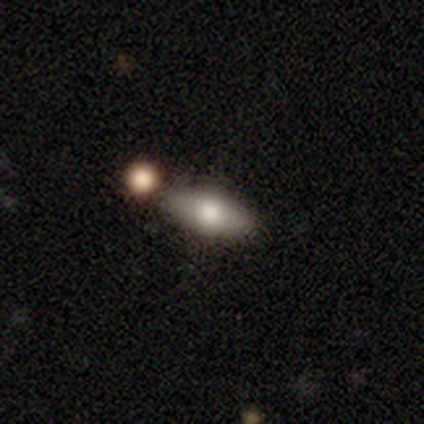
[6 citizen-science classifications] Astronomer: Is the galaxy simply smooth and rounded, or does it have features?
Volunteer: smooth — 100%.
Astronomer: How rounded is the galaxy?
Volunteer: in between — 83%.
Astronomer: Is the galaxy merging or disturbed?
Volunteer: none — 83%.